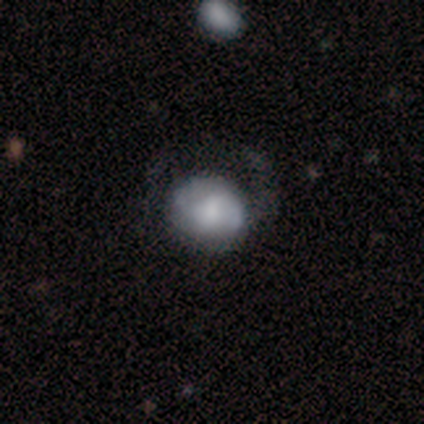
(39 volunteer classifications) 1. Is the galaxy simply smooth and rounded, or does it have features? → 64% featured or disk, 36% smooth, 0% star or artifact.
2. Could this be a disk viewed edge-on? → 100% no, 0% yes.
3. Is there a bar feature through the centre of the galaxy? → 56% no, 44% weak, 0% strong.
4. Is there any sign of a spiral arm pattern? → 60% no, 40% yes.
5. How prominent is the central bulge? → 40% moderate, 24% small, 20% none, 16% large, 0% dominant.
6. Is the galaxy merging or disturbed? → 44% none, 23% major disturbance, 13% minor disturbance, 0% merger.